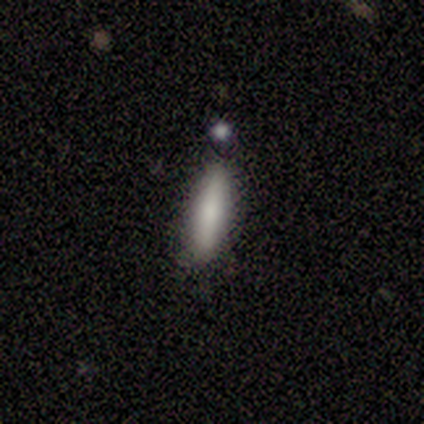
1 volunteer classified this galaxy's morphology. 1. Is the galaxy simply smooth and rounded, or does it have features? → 100% featured or disk, 0% smooth, 0% star or artifact.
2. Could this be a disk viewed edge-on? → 100% yes, 0% no.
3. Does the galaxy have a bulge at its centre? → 100% rounded, 0% boxy, 0% none.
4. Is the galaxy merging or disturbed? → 100% none, 0% minor disturbance, 0% major disturbance, 0% merger.